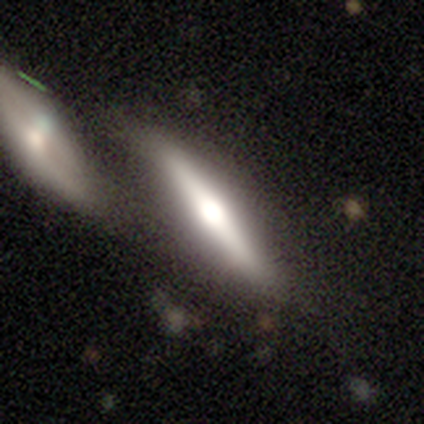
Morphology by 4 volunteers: Overall: featured or disk (75%). Edge-on disk: yes (100%). Edge-on bulge: rounded (100%). Merging: none (50%, tied with merger).